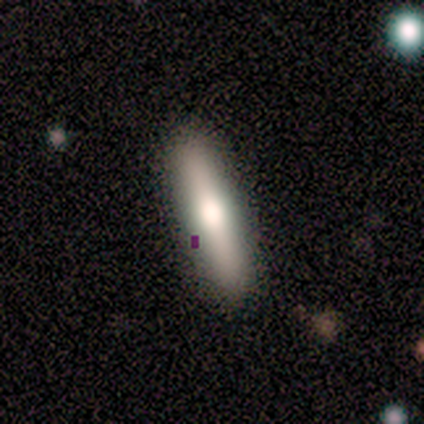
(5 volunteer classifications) A smooth galaxy with no disk features (60%) that is cigar-shaped (100%). Merging: none (100%).